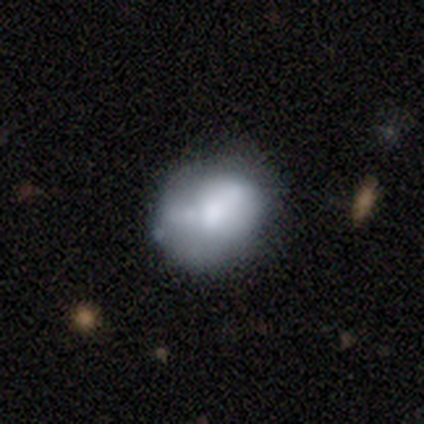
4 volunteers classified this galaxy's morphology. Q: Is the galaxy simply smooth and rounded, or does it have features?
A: smooth — 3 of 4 (75%).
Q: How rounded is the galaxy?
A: round — 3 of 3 (100%).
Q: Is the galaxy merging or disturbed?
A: none — 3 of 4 (75%).